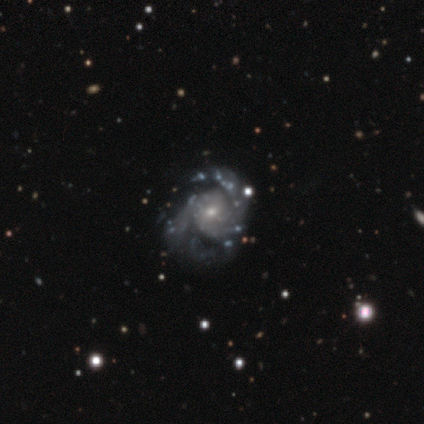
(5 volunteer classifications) Smooth or featured?
  - featured or disk: 100% *
  - smooth: 0%
  - star or artifact: 0%
Edge-on disk?
  - no: 100% *
  - yes: 0%
Bar?
  - no: 60% *
  - weak: 40%
  - strong: 0%
Spiral arms?
  - yes: 100% *
  - no: 0%
Spiral winding?
  - medium: 80% *
  - loose: 20%
  - tight: 0%
Spiral arm count?
  - 2: 60% *
  - 3: 40%
  - 1: 0%
  - 4: 0%
  - more than 4: 0%
  - can't tell: 0%
Bulge size?
  - moderate: 60% *
  - small: 40%
  - dominant: 0%
  - large: 0%
  - none: 0%
Merging?
  - none: 80% *
  - minor disturbance: 20%
  - major disturbance: 0%
  - merger: 0%